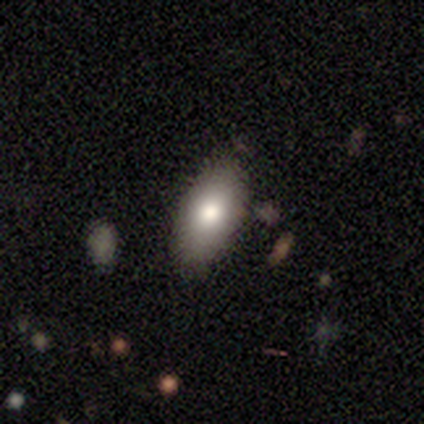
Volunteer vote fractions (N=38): This is clearly a smooth galaxy (82%). How rounded: clearly in between (97%). Merging: clearly none (81%).